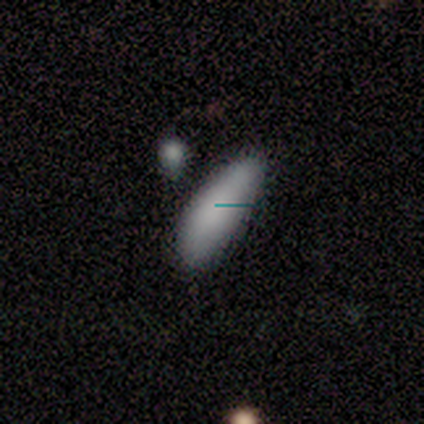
Overall: smooth (86%). How rounded: in between (83%). Merging: none (83%).